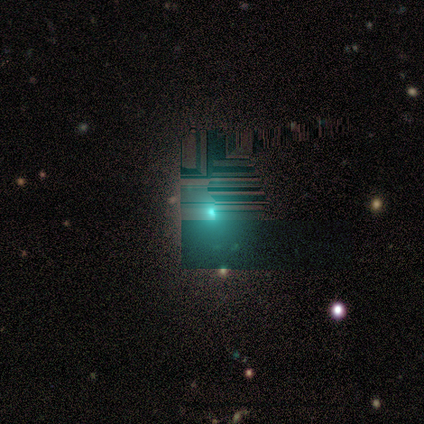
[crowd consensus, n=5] Smooth or featured: star or artifact — 60% (smooth — 40%)